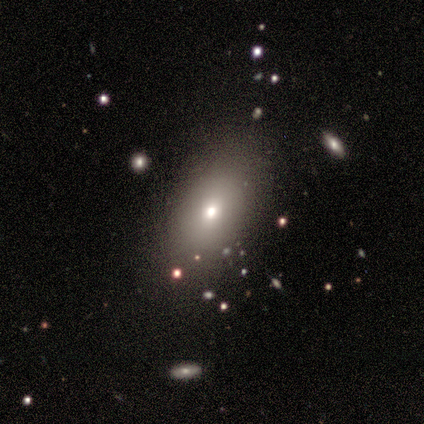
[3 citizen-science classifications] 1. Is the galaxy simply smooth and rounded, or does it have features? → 100% smooth, 0% featured or disk, 0% star or artifact.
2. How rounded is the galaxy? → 100% in between, 0% round, 0% cigar-shaped.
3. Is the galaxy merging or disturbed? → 100% none, 0% minor disturbance, 0% major disturbance, 0% merger.